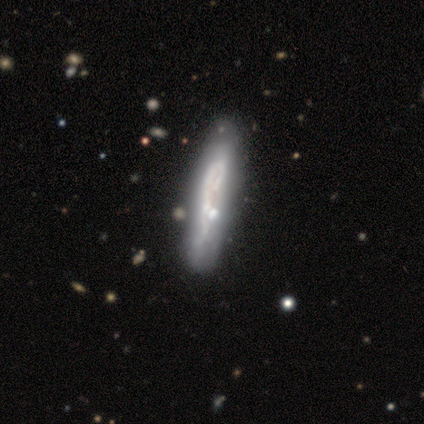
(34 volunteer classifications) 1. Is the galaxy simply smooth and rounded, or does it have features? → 71% featured or disk, 26% smooth, 3% star or artifact.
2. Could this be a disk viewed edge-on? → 62% yes, 38% no.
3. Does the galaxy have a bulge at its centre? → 67% none, 20% boxy, 13% rounded.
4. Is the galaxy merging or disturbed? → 33% none (tied), 33% minor disturbance (tied), 24% major disturbance, 9% merger.